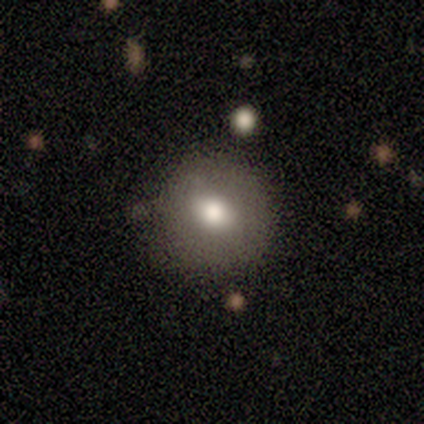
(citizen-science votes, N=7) Smooth or featured?
  - smooth: 71% *
  - featured or disk: 14%
  - star or artifact: 14%
How rounded?
  - round: 100% *
  - in between: 0%
  - cigar-shaped: 0%
Merging?
  - none: 100% *
  - minor disturbance: 0%
  - major disturbance: 0%
  - merger: 0%